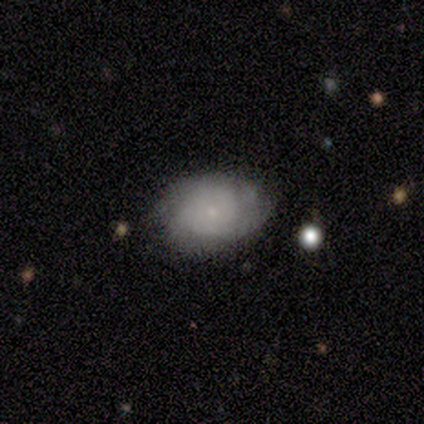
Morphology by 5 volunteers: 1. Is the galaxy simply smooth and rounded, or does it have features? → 60% featured or disk, 40% smooth, 0% star or artifact.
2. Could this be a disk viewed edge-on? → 100% no, 0% yes.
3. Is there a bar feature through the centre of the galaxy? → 100% no, 0% strong, 0% weak.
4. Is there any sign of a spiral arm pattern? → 67% no, 33% yes.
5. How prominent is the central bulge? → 67% small, 33% none, 0% dominant, 0% large, 0% moderate.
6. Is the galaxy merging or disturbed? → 60% none, 20% minor disturbance, 20% major disturbance, 0% merger.